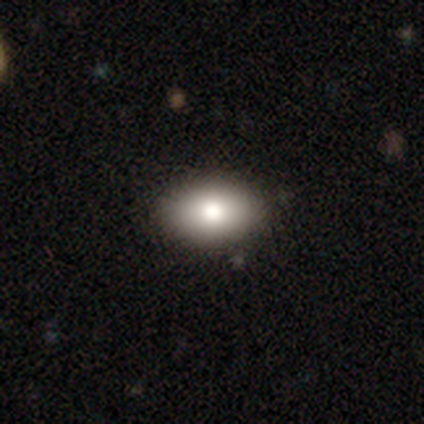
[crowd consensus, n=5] Volunteers were most divided on "smooth or featured" (2-way tie): smooth: 40%, star or artifact: 40%, featured or disk: 20%; "how rounded" (2-way tie): round: 50%, in between: 50%, cigar-shaped: 0%. More confident: merging — none (100%).